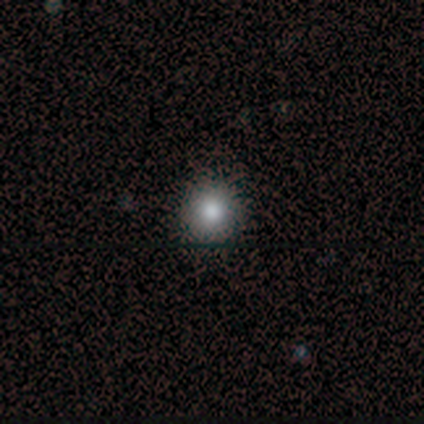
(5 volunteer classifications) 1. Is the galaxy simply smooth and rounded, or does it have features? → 60% smooth, 20% featured or disk, 20% star or artifact.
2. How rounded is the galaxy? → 100% round, 0% in between, 0% cigar-shaped.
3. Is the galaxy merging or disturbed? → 100% none, 0% minor disturbance, 0% major disturbance, 0% merger.